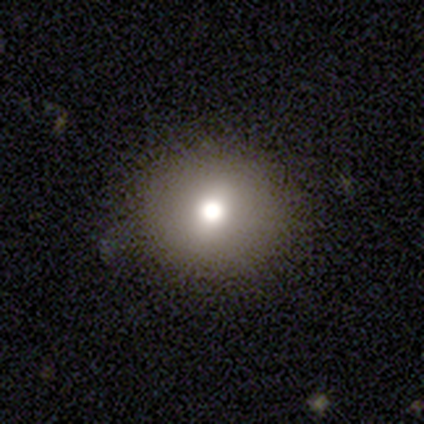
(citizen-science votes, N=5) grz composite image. It shows a smooth galaxy with no disk features (60%) that is round (67%). Merging: none (75%).